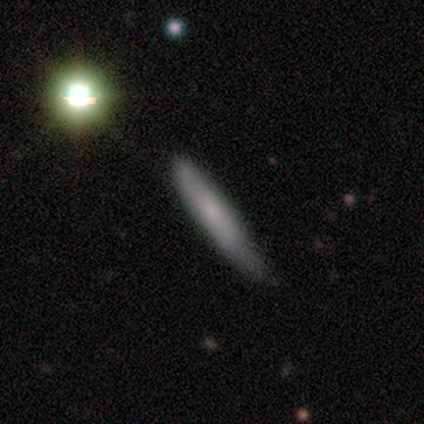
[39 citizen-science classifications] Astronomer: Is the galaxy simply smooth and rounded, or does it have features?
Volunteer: smooth — 67%.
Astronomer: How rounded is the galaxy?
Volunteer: cigar-shaped — 92%.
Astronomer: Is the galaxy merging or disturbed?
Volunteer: none — 57% (runner-up: minor disturbance, 40%).